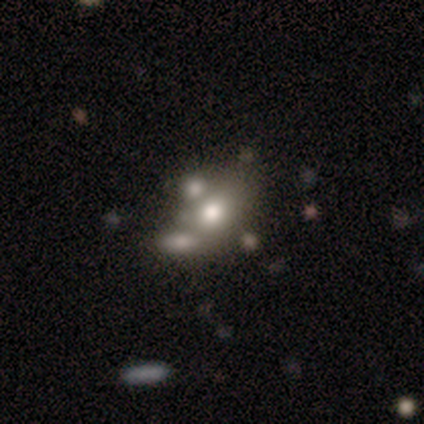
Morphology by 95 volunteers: A smooth galaxy with no disk features (53%) that is in between round and cigar-shaped (62%). Merging: none (40%).